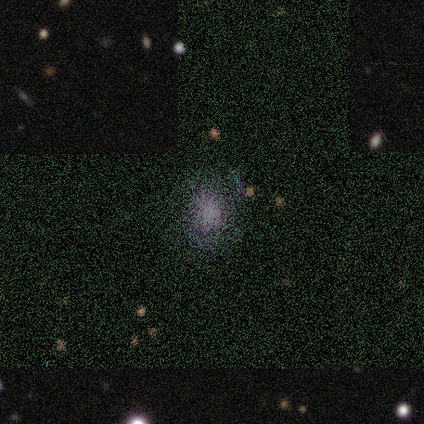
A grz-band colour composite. It shows a smooth galaxy with no disk features (56%) that is in between round and cigar-shaped (60%). Merging: none (67%).